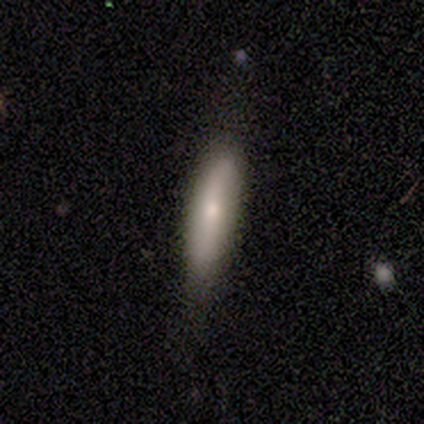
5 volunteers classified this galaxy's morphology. This appears to be a featured or disk galaxy (60%) viewed edge-on (67%) with a rounded central bulge (100%). Merging: none (100%).